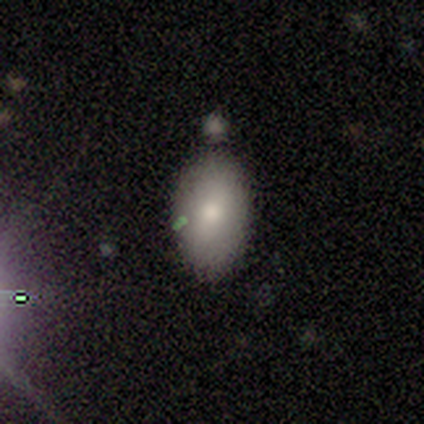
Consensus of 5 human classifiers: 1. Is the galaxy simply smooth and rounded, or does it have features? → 80% smooth, 20% star or artifact, 0% featured or disk.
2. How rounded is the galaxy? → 100% in between, 0% round, 0% cigar-shaped.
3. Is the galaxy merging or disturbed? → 75% none, 25% major disturbance, 0% minor disturbance, 0% merger.